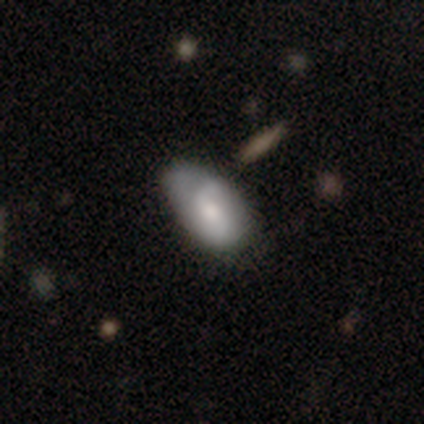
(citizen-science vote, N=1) Consensus on every question: smooth or featured — featured or disk (100%); edge-on disk — no (100%); bar — no (100%); spiral arms — no (100%); bulge size — small (100%); merging — none (100%).